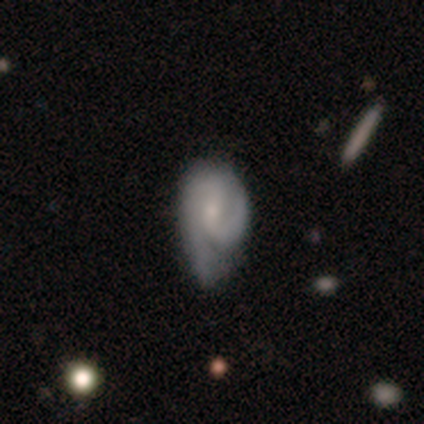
Smooth or featured? 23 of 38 (61%) said featured or disk. Edge-on disk? 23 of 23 (100%) said no. Bar? 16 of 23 (70%) said no. Spiral arms? 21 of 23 (91%) said yes. Spiral winding? 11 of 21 (52%) said tight. Spiral arm count? 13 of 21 (62%) said 2. Bulge size? 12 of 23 (52%) said small. Merging? 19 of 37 (51%) said minor disturbance.